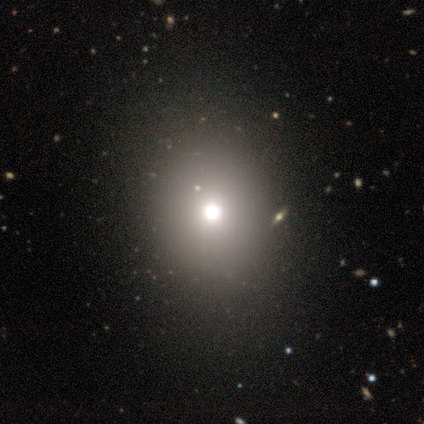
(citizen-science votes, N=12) A smooth galaxy with no disk features (50%, tied with star or artifact) that is round (50%, tied with in between). Merging: none (100%).